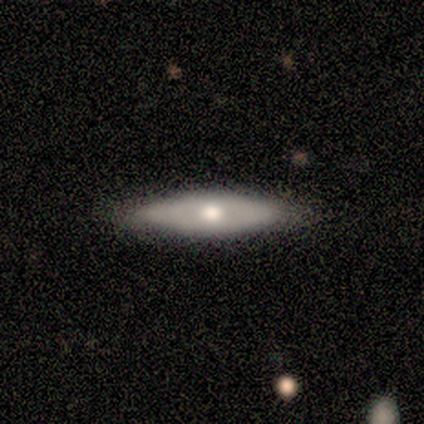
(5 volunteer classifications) smooth_or_featured: smooth (p=0.80) [alt: featured or disk p=0.20]
how_rounded: in between (p=0.50) [tied with: cigar-shaped p=0.50]
merging: none (p=1.00)